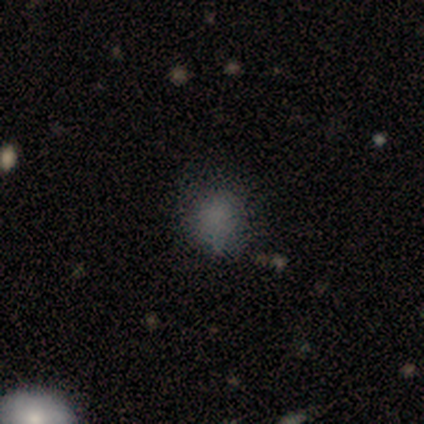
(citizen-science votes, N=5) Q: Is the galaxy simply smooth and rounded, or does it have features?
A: smooth — 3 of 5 (60%).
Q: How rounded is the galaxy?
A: round — 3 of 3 (100%).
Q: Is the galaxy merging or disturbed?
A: none — 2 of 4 (50%, tied with minor disturbance).